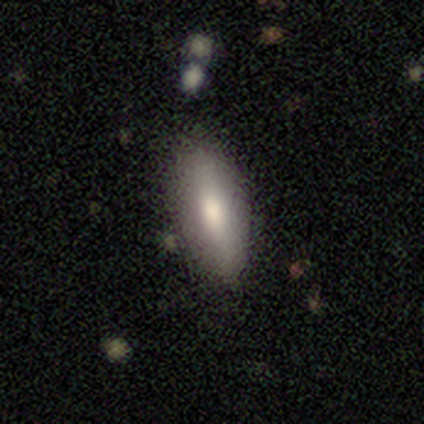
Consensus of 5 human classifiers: A smooth galaxy with no disk features (80%) that is in between round and cigar-shaped (100%).

Vote fractions:
- Smooth or featured? smooth: 80% / featured or disk: 20% / star or artifact: 0%
- How rounded? in between: 100% / round: 0% / cigar-shaped: 0%
- Merging? none: 100% / minor disturbance: 0% / major disturbance: 0% / merger: 0%